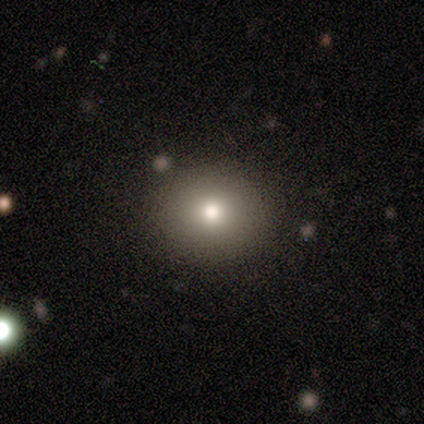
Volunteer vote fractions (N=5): A smooth galaxy with no disk features (80%) that is round (75%). Merging: none (100%).